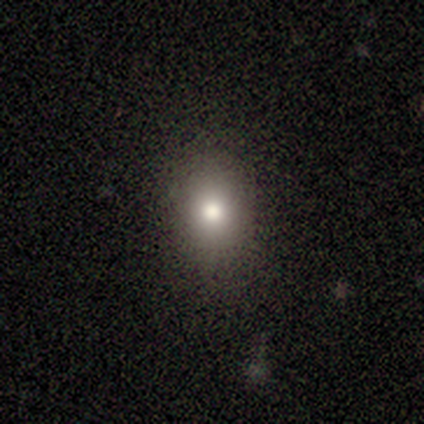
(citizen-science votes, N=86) Volunteers were most divided on "how rounded": round: 54%, in between: 46%, cigar-shaped: 0%. More confident: merging — none (89%); smooth or featured — smooth (76%).